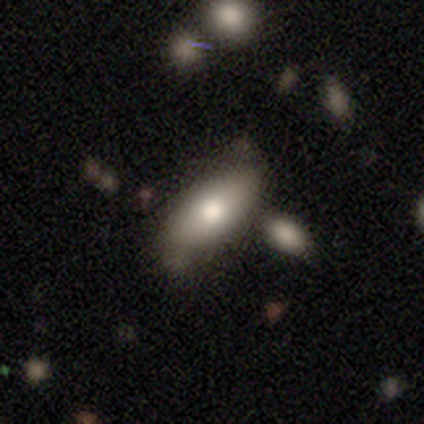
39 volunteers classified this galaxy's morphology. smooth_or_featured: smooth (p=0.87) [alt: featured or disk p=0.10]
how_rounded: in between (p=0.85) [alt: cigar-shaped p=0.15]
merging: none (p=0.58) [alt: minor disturbance p=0.21]